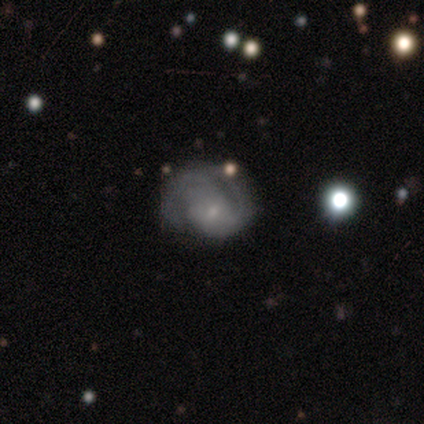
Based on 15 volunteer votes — This is clearly a featured or disk galaxy (87%). It is clearly not viewed edge-on (100%). Bar: likely no (62%). Spiral arm pattern: clearly yes (100%). Spiral arm count: possibly 2 (46%). Spiral winding: likely medium (77%). Central bulge: likely small (77%). Merging: possibly none (53%).